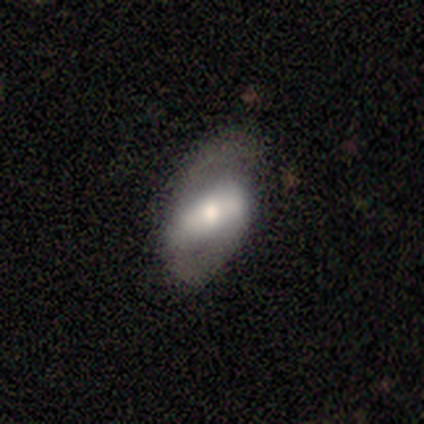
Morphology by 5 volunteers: This appears to be a smooth galaxy with no disk features (60%) that is in between round and cigar-shaped (100%). Merging: none (60%).